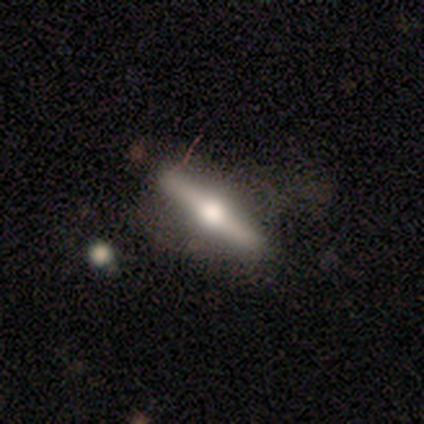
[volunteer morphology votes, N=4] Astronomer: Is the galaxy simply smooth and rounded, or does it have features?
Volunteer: featured or disk — 75%.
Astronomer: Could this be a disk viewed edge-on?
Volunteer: yes — 100%.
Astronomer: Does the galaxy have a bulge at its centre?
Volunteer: rounded — 100%.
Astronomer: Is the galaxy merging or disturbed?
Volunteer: none — 75%.